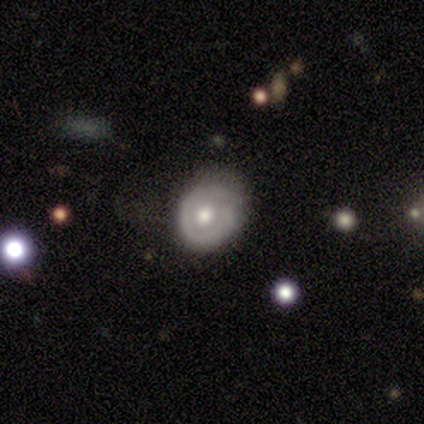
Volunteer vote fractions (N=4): Smooth or featured: featured or disk — 75% (smooth — 25%)
Edge-on disk: no — 100%
Bar: no — 100%
Spiral arms: yes — 67% (no — 33%)
Spiral winding: tight — 50% (tied with medium — 50%)
Spiral arm count: 1 — 50% (tied with can't tell — 50%)
Bulge size: moderate — 67% (small — 33%)
Merging: minor disturbance — 50% (none — 25%)